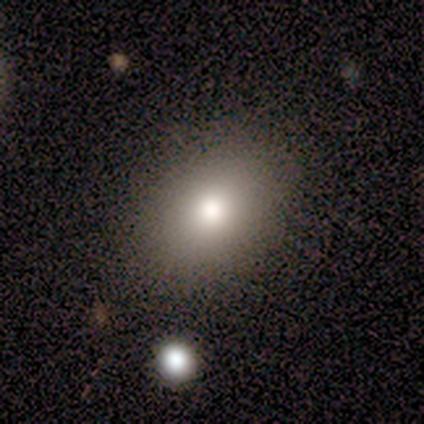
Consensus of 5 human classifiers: A smooth galaxy with no disk features (80%) that is in between round and cigar-shaped (100%). Merging: none (100%).